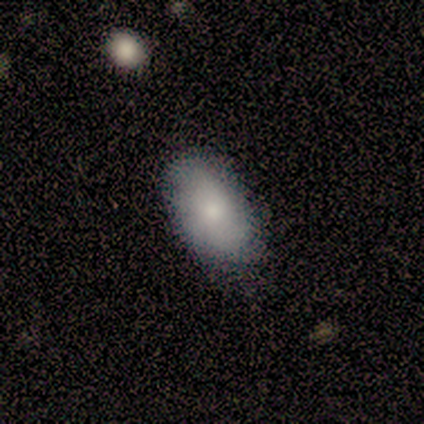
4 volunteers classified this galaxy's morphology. smooth_or_featured: smooth (p=0.75) [alt: featured or disk p=0.25]
how_rounded: in between (p=1.00)
merging: none (p=0.50) [tied with: minor disturbance p=0.50]